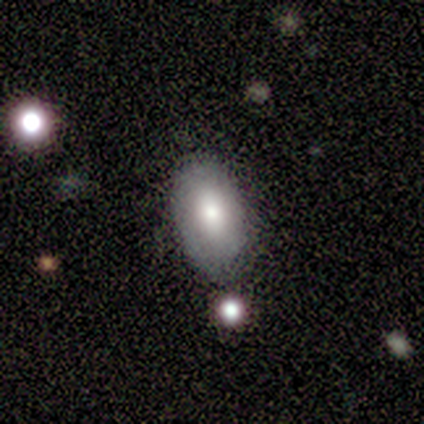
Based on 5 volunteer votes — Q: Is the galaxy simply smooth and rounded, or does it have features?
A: featured or disk — 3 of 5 (60%).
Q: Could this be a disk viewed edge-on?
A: no — 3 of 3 (100%).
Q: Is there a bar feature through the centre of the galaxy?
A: no — 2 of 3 (67%).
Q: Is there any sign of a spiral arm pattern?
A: no — 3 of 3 (100%).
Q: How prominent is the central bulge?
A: small — 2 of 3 (67%).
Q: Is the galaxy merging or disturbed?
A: none — 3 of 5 (60%).